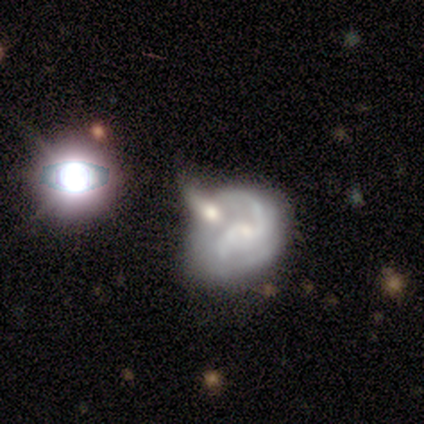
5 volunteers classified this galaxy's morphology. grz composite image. It shows a featured or disk galaxy (80%) with a weak bar (50%, tied with no), 2 (67%) loose (100%) spiral arms (75%) and a small central bulge (50%). Merging: merger (60%).